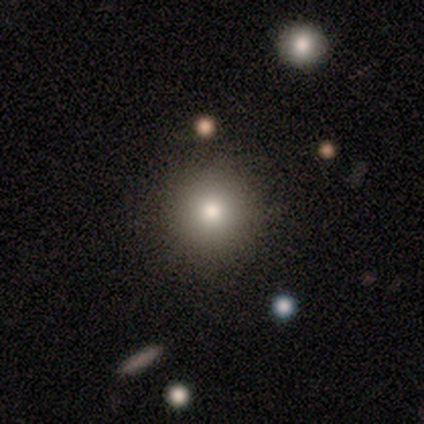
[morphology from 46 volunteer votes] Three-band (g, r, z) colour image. It shows a smooth galaxy with no disk features (74%) that is round (97%). Merging: none (87%).